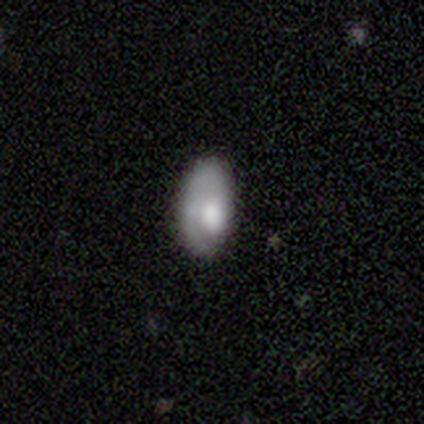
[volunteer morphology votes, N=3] smooth_or_featured: smooth (p=0.67) [alt: featured or disk p=0.33]
how_rounded: in between (p=1.00)
merging: none (p=1.00)